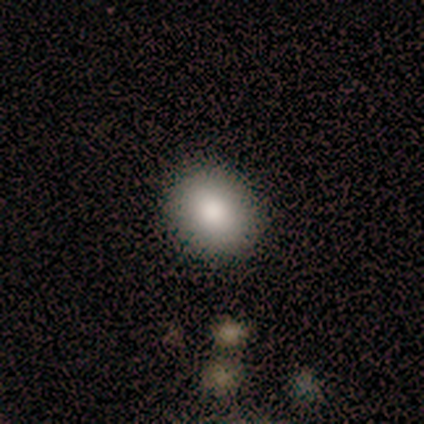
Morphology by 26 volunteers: type=smooth (73%); roundness=round (68%); merging=none (86%).